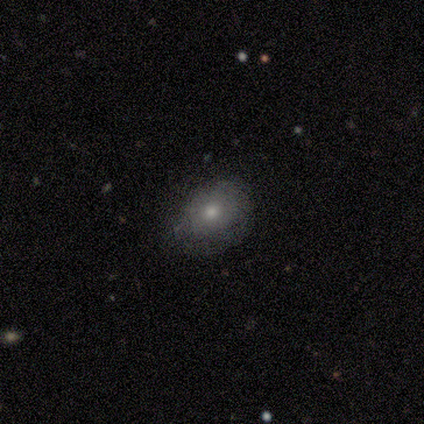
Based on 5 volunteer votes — Overall: smooth (60%; featured or disk 20%). How rounded: in between (67%; round 33%). Merging: none (75%).